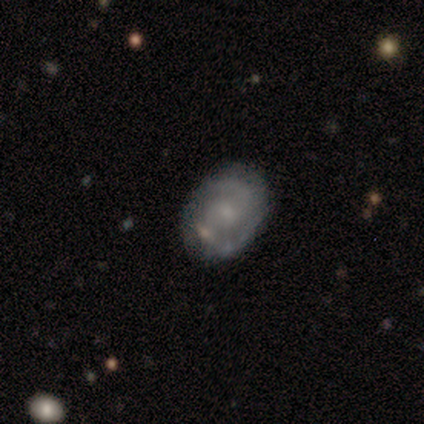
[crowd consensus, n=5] Morphology: type=featured or disk (80%); edge-on=no (100%); bar=weak (75%); spiral arms=yes (100%); winding=medium (75%); arm count=2 (100%); bulge=small (75%); merging=none (100%).